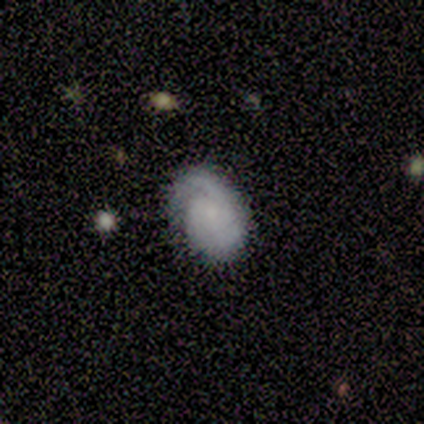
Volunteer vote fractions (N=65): Morphology: type=featured or disk (55%); edge-on=no (100%); bar=no (86%); spiral arms=yes (86%); winding=tight (61%); arm count=2 (39%); bulge=small (53%); merging=none (64%).